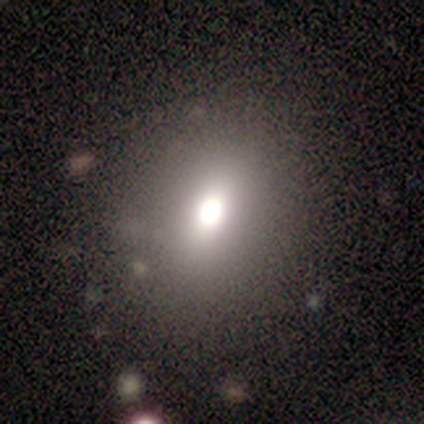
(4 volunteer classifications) Smooth or featured? smooth (50%)
How rounded? in between (100%)
Merging? none (67%)